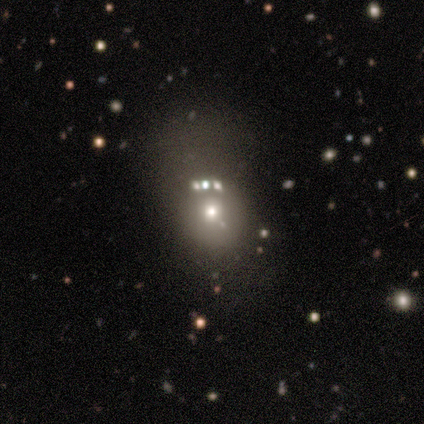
This is clearly a smooth galaxy (80%). How rounded: possibly round (50%, tied with in between). Merging: possibly none (50%, tied with minor disturbance).